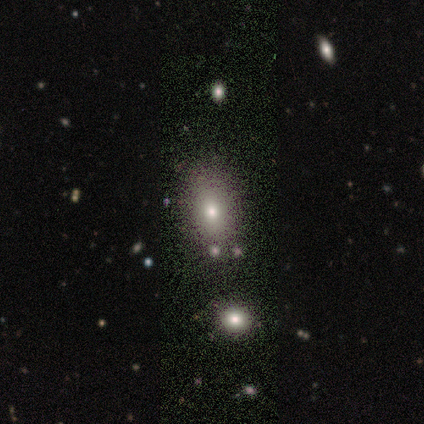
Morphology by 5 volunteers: smooth 100%, featured or disk 0%, star or artifact 0%. Down the decision tree: how rounded — in between (60%); merging — none (80%).